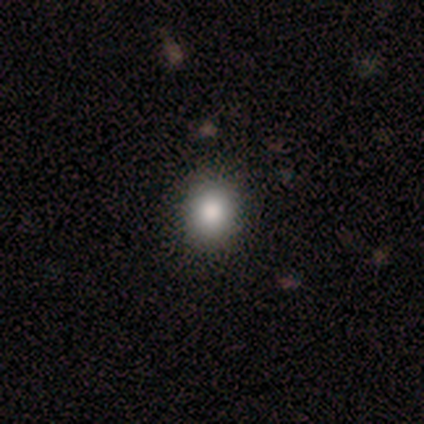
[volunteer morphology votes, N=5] Smooth or featured: smooth — 80% (featured or disk — 20%)
How rounded: round — 75% (in between — 25%)
Merging: none — 100%